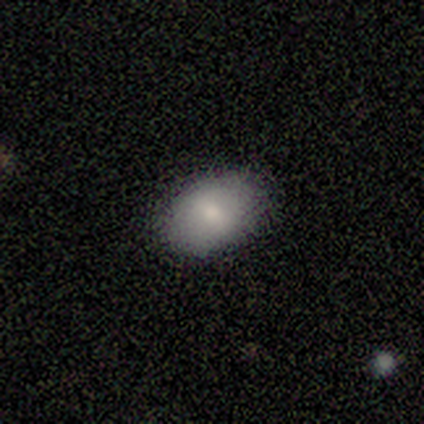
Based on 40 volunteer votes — Morphology: type=smooth (80%); roundness=in between (84%); merging=none (84%).